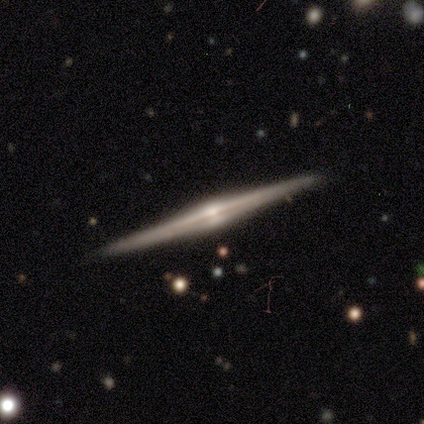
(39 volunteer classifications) A featured or disk galaxy (92%) viewed edge-on (97%) with a rounded central bulge (97%).

Vote fractions:
- Smooth or featured? featured or disk: 92% / smooth: 8% / star or artifact: 0%
- Edge-on disk? yes: 97% / no: 3%
- Edge-on bulge? rounded: 97% / boxy: 3% / none: 0%
- Merging? none: 92% / minor disturbance: 5% / merger: 3% / major disturbance: 0%